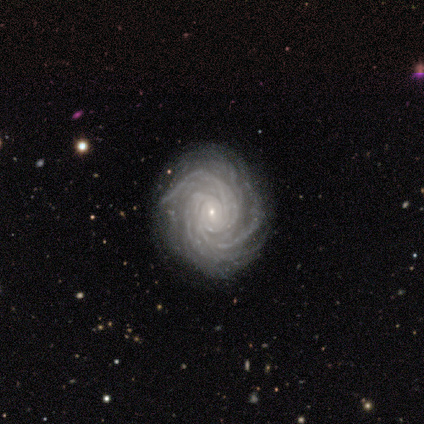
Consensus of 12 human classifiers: Smooth or featured? featured or disk (100%)
Edge-on disk? no (100%)
Bar? no (92%)
Spiral arms? yes (100%)
Spiral winding? tight (83%)
Spiral arm count? can't tell (50%)
Bulge size? small (100%)
Merging? none (83%)